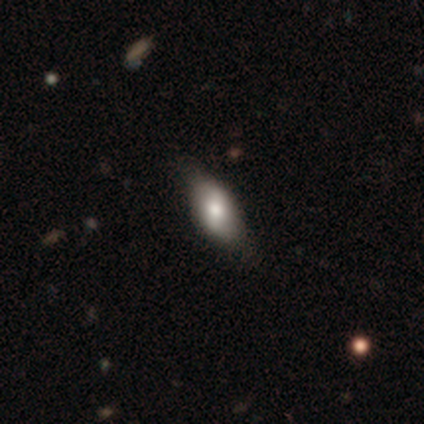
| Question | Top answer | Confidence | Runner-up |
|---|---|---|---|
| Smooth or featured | smooth | 60% | featured or disk (20%) |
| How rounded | in between | 100% | — |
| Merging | none | 75% | minor disturbance (25%) |